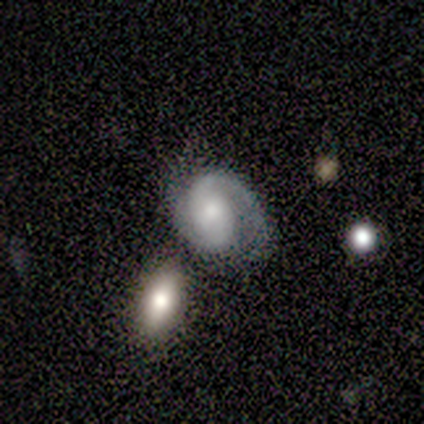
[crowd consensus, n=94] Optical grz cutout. It shows a featured or disk galaxy (87%) with no bar (51%), 2 (79%) medium (57%) spiral arms (99%) and a moderate central bulge (58%). Merging: none (44%).